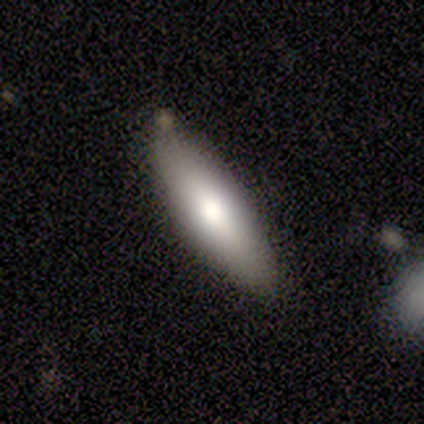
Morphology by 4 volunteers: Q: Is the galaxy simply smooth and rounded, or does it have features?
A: smooth — 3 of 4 (75%).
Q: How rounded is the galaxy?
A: in between — 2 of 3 (67%).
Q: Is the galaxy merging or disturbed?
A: minor disturbance — 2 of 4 (50%).